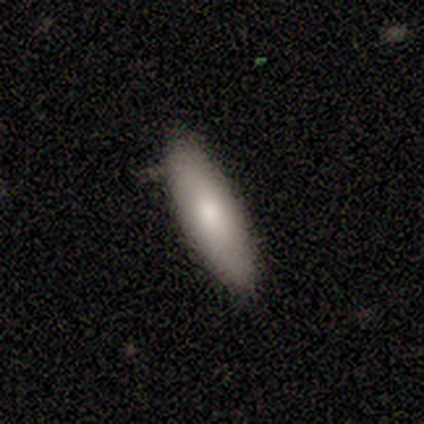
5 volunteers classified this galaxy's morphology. smooth 80%, featured or disk 20%, star or artifact 0%. Down the decision tree: how rounded — cigar-shaped (75%); merging — none (100%).